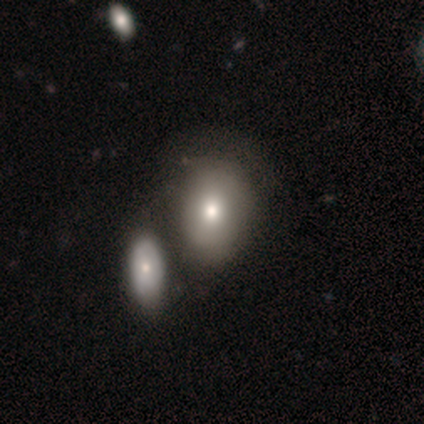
Smooth or featured: featured or disk — 50% (smooth — 33%)
Edge-on disk: no — 67% (yes — 33%)
Bar: no — 100%
Spiral arms: no — 100%
Bulge size: moderate — 100%
Merging: none — 40% (tied with merger — 40%)